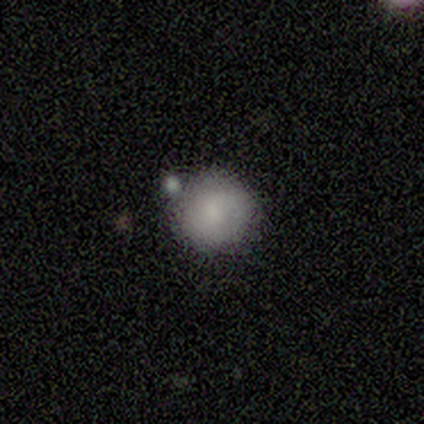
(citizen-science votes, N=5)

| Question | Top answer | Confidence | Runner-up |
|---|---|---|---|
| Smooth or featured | smooth | 80% | featured or disk (20%) |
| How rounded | round | 100% | — |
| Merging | none | 60% | minor disturbance (20%) |